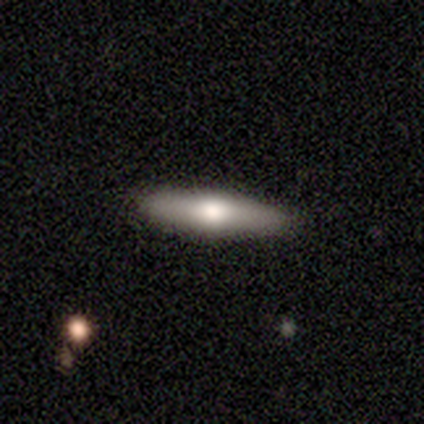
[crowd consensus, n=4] Overall: featured or disk (75%). Edge-on disk: yes (100%). Edge-on bulge: rounded (100%). Merging: none (100%).